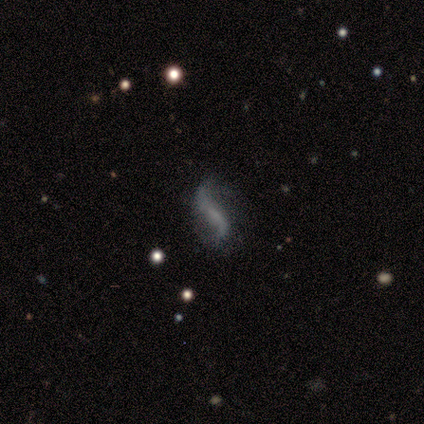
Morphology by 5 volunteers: type=featured or disk (60%); edge-on=no (100%); bar=weak (67%); spiral arms=yes (100%); winding=loose (100%); arm count=2 (100%); bulge=none (67%); merging=none (50%, tied with minor disturbance).